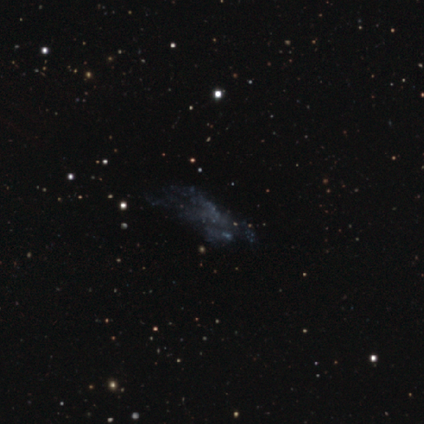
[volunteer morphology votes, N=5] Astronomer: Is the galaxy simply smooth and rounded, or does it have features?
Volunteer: star or artifact — 60% (runner-up: featured or disk, 40%).